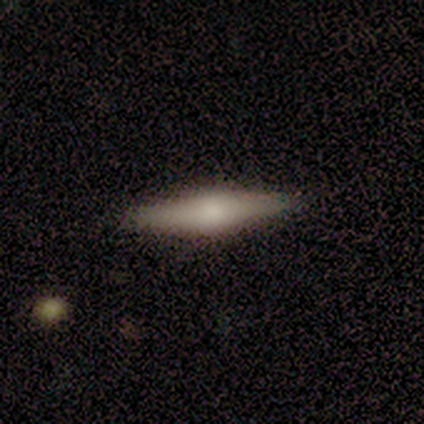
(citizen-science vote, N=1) featured or disk 100%, smooth 0%, star or artifact 0%. Down the decision tree: edge-on disk — yes (100%); edge-on bulge — rounded (100%); merging — none (100%).